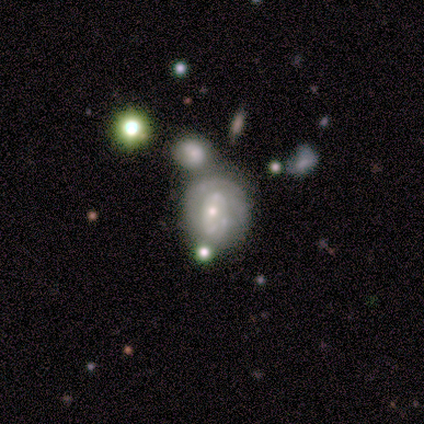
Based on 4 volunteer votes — This is clearly a featured or disk galaxy (100%). It is clearly not viewed edge-on (100%). Bar: clearly no (100%). Spiral arm pattern: possibly yes (50%, tied with no). Spiral arm count: possibly 1 (50%, tied with can't tell). Spiral winding: possibly tight (50%, tied with medium). Central bulge: likely small (75%). Merging: possibly none (50%).